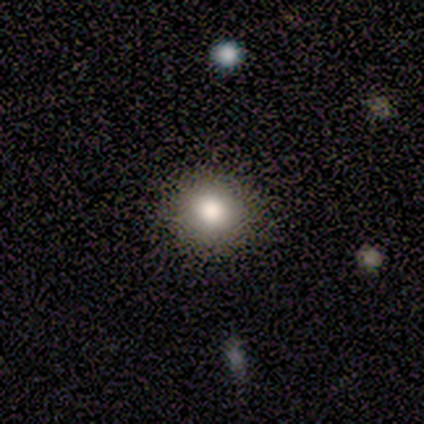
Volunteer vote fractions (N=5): smooth 100%, featured or disk 0%, star or artifact 0%. Down the decision tree: how rounded — round (80%); merging — none (100%).